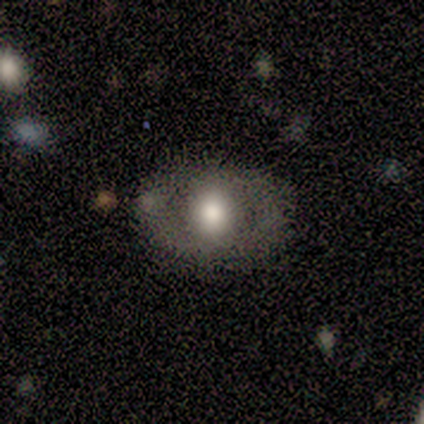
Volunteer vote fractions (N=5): Morphology: type=featured or disk (60%); edge-on=no (100%); bar=strong (67%); spiral arms=yes (67%); winding=tight (50%, tied with medium); arm count=2 (100%); bulge=moderate (67%); merging=none (100%).